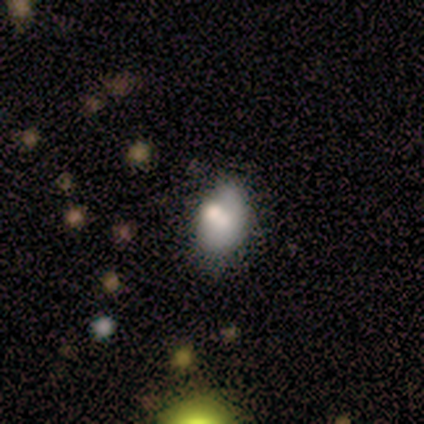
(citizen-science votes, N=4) Morphology: type=featured or disk (50%); edge-on=no (100%); bar=no (100%); spiral arms=no (100%); bulge=large (50%, tied with moderate); merging=none (67%).